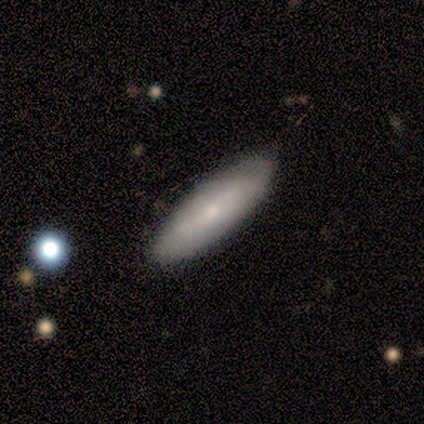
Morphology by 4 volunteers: This is likely a smooth galaxy (75%). How rounded: likely cigar-shaped (67%). Merging: likely none (67%).